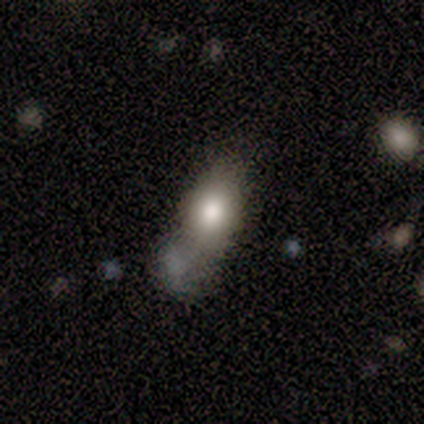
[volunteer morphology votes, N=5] Overall: smooth (60%; featured or disk 40%). How rounded: in between (67%; round 33%). Merging: minor disturbance (40%; none 20%).